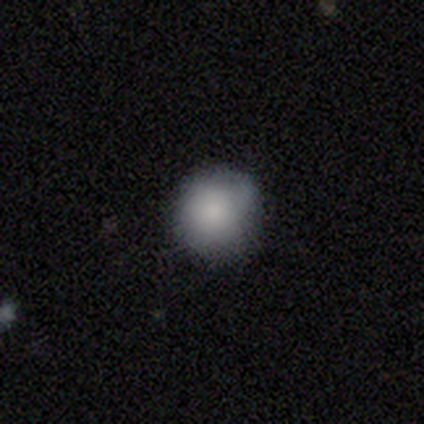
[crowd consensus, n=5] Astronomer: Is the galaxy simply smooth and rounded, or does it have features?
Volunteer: smooth — 80%.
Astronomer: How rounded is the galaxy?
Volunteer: round — 75%.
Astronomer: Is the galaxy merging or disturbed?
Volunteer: none — 50%, tied with minor disturbance at 50%.